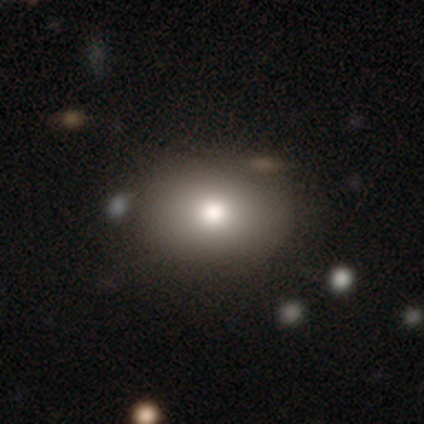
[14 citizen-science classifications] Smooth or featured? smooth (86%)
How rounded? in between (67%)
Merging? none (77%)